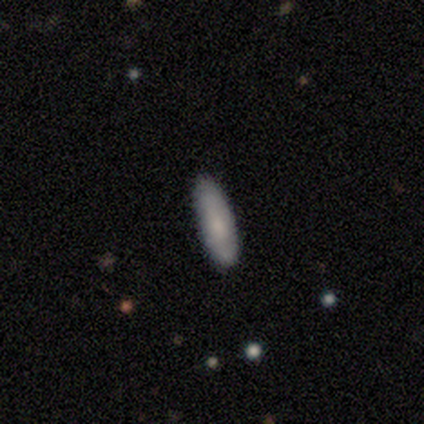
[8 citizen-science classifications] Overall: smooth (100%). How rounded: in between (62%; cigar-shaped 38%). Merging: none (88%).